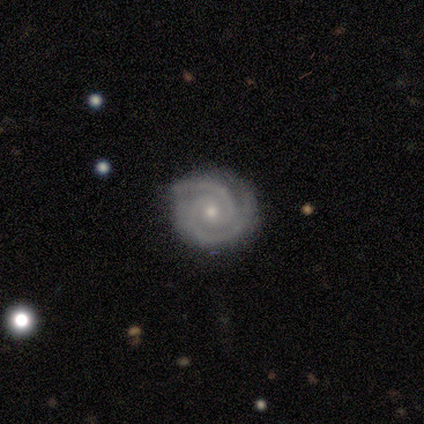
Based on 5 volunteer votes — Smooth or featured? 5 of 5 (100%) said featured or disk. Edge-on disk? 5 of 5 (100%) said no. Bar? 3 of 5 (60%) said weak. Spiral arms? 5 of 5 (100%) said yes. Spiral winding? 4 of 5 (80%) said tight. Spiral arm count? 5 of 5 (100%) said 2. Bulge size? 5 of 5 (100%) said small. Merging? 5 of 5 (100%) said none.